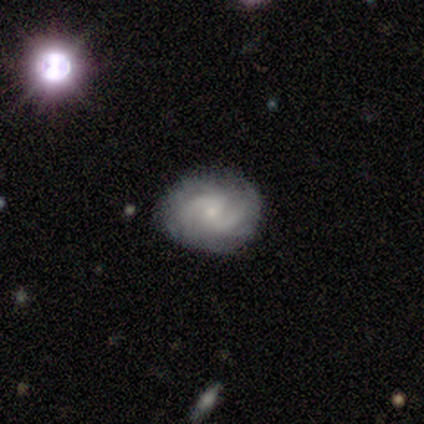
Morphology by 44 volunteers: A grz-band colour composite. It shows a featured or disk galaxy (68%) with no bar (60%), 2 (80%) medium (60%) spiral arms (100%) and a small central bulge (80%). Merging: none (78%).